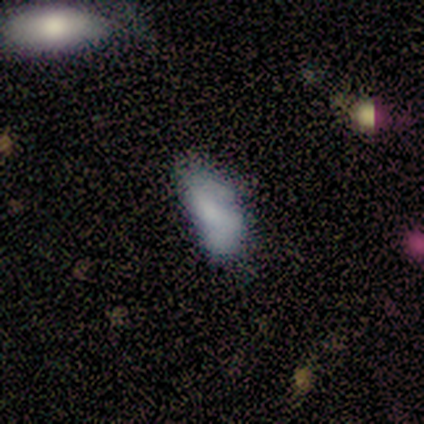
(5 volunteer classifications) Smooth or featured? featured or disk (60%)
Edge-on disk? no (100%)
Bar? weak (67%)
Spiral arms? no (67%)
Bulge size? moderate (33%, tied with small and none)
Merging? none (60%)